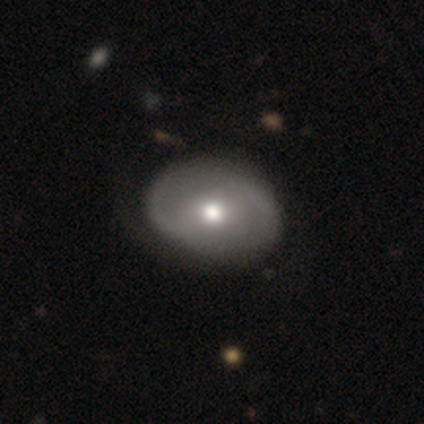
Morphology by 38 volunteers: smooth_or_featured: featured or disk (p=0.61) [alt: smooth p=0.37]
disk_edge_on: no (p=1.00)
bar: no (p=0.70) [alt: weak p=0.17]
has_spiral_arms: yes (p=0.74) [alt: no p=0.26]
spiral_winding: medium (p=0.53) [alt: loose p=0.29]
spiral_arm_count: 2 (p=0.82) [alt: 1 p=0.18]
bulge_size: moderate (p=0.78) [alt: small p=0.13]
merging: none (p=0.49) [alt: minor disturbance p=0.22]